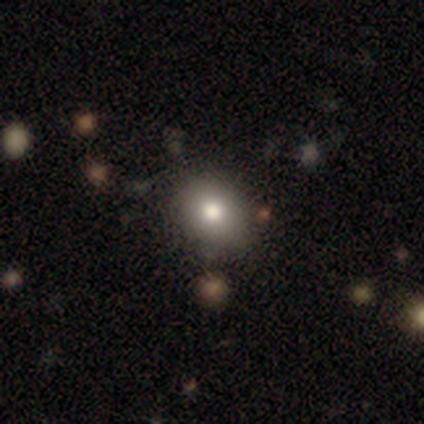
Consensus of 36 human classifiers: A smooth galaxy with no disk features (78%) that is round (75%).

Vote fractions:
- Smooth or featured? smooth: 78% / featured or disk: 17% / star or artifact: 6%
- How rounded? round: 75% / in between: 25% / cigar-shaped: 0%
- Merging? none: 56% / minor disturbance: 6% / major disturbance: 0% / merger: 0%